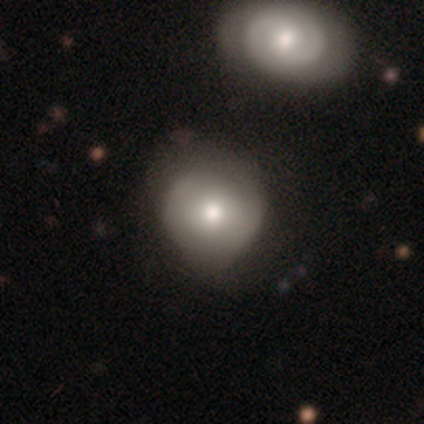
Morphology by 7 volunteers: Smooth or featured?
  - smooth: 57% *
  - featured or disk: 29%
  - star or artifact: 14%
How rounded?
  - round: 100% *
  - in between: 0%
  - cigar-shaped: 0%
Merging?
  - none: 83% *
  - minor disturbance: 17%
  - major disturbance: 0%
  - merger: 0%